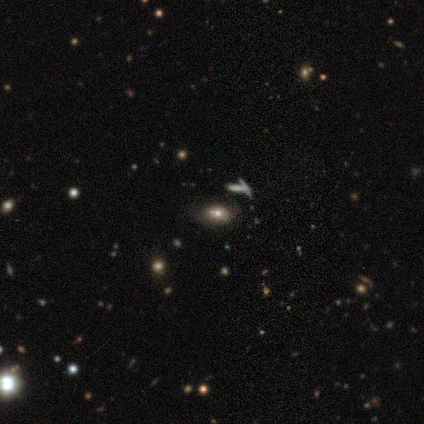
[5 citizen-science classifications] Q: Smooth or featured?
A: smooth (60%); runner-up: star or artifact (40%)
Q: How rounded?
A: in between (67%); runner-up: round (33%)
Q: Merging?
A: none (33%); tied with: minor disturbance (33%); merger (33%)